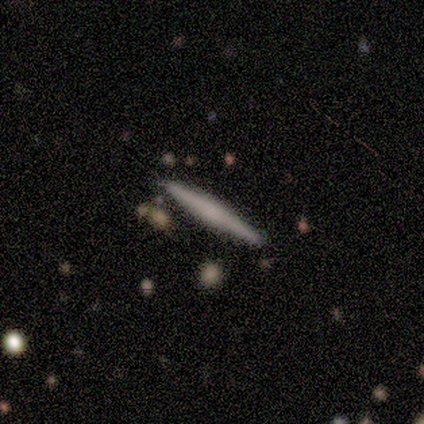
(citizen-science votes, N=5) This appears to be a smooth galaxy with no disk features (80%) that is cigar-shaped (100%). Merging: none (80%).